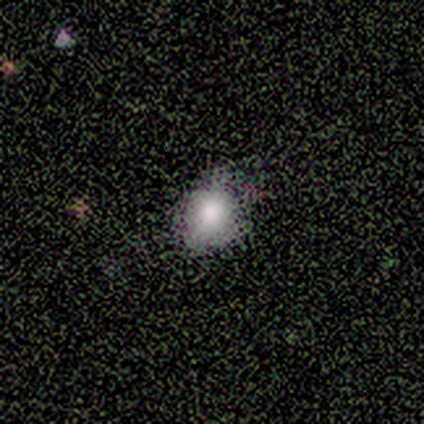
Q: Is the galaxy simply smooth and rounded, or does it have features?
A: smooth — 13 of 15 (87%).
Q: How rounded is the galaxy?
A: round — 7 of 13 (54%).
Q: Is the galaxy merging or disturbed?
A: none — 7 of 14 (50%).